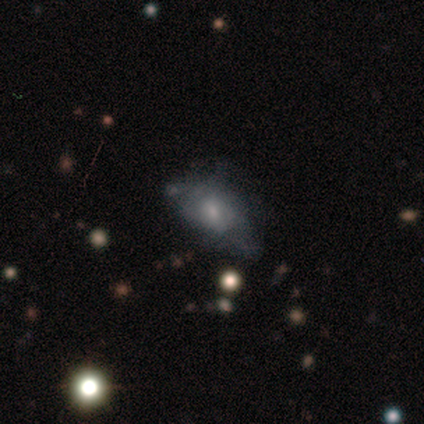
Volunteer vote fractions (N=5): Overall: star or artifact (60%; featured or disk 40%).